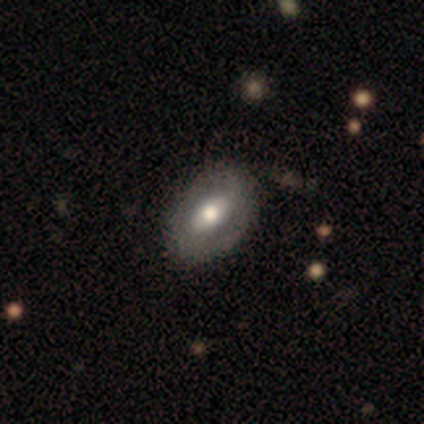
Smooth or featured? featured or disk (75%)
Edge-on disk? no (67%)
Bar? strong (50%, tied with weak)
Spiral arms? yes (50%, tied with no)
Spiral winding? medium (100%)
Spiral arm count? 2 (100%)
Bulge size? large (50%, tied with moderate)
Merging? none (100%)